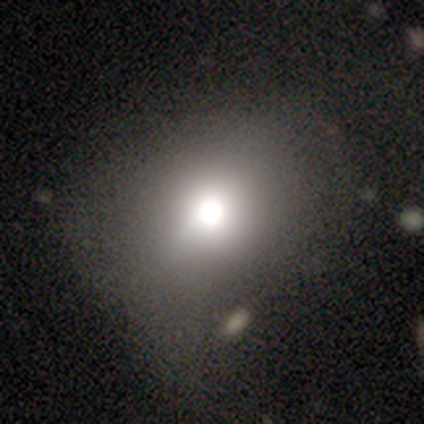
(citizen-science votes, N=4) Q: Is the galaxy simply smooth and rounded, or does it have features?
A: smooth — 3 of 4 (75%).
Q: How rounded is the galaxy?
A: round — 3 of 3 (100%).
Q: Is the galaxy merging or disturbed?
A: none — 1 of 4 (25%, tied with minor disturbance, major disturbance and merger).